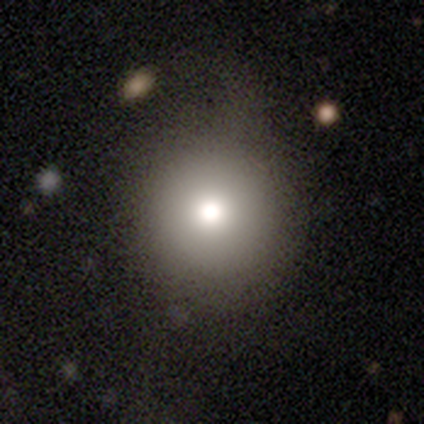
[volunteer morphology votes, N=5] type=smooth (80%); roundness=round (100%); merging=none (80%).